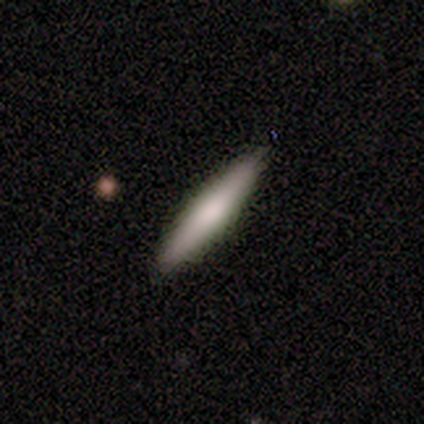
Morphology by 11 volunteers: A smooth galaxy with no disk features (64%) that is cigar-shaped (57%).

Vote fractions:
- Smooth or featured? smooth: 64% / featured or disk: 36% / star or artifact: 0%
- How rounded? cigar-shaped: 57% / in between: 43% / round: 0%
- Merging? none: 91% / minor disturbance: 9% / major disturbance: 0% / merger: 0%